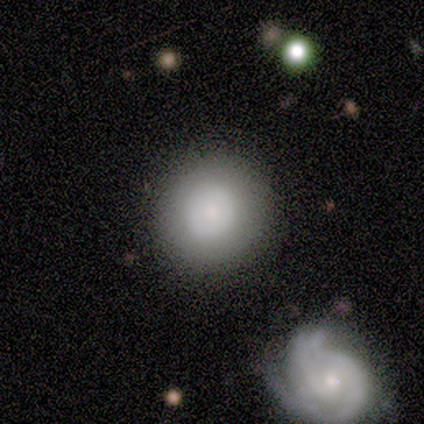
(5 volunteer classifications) Volunteers were most divided on "smooth or featured": smooth: 80%, featured or disk: 20%, star or artifact: 0%. More confident: how rounded — round (100%); merging — none (80%).